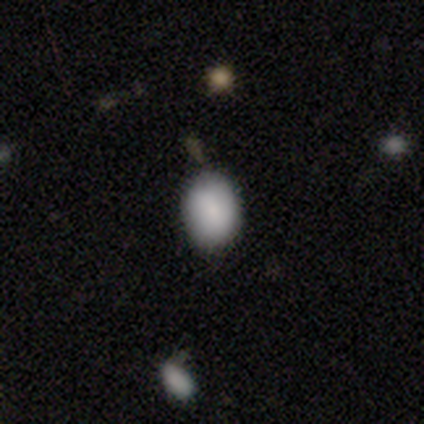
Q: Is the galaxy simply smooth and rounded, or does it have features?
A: smooth — 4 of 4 (100%).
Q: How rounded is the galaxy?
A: round — 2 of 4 (50%, tied with in between).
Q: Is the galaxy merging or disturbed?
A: none — 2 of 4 (50%).